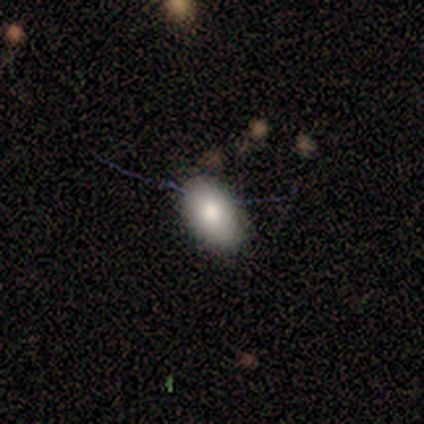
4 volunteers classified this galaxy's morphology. type=smooth (75%); roundness=in between (100%); merging=none (100%).